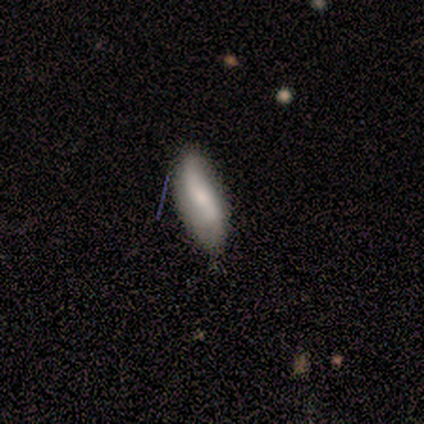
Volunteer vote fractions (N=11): smooth-or-featured: featured or disk: 55% | smooth: 27% | star or artifact: 18%
  disk-edge-on: no: 83% | yes: 17%
    bar: no: 80% | weak: 20% | strong: 0%
    has-spiral-arms: yes: 80% | no: 20%
      spiral-winding: loose: 75% | medium: 25% | tight: 0%
      spiral-arm-count: 2: 75% | 1: 25% | 3: 0% | 4: 0% | more than 4: 0% | can't tell: 0%
    bulge-size: small: 60% | moderate: 40% | dominant: 0% | large: 0% | none: 0%
  merging: none: 89% | minor disturbance: 11% | major disturbance: 0% | merger: 0%